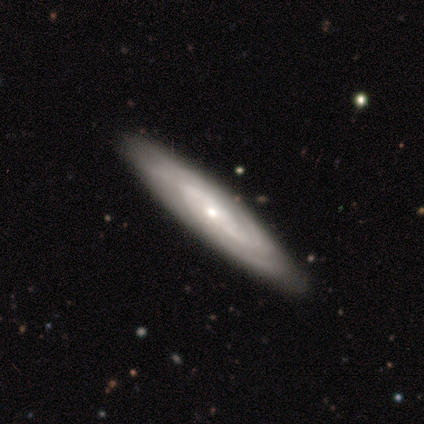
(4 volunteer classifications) smooth 50% (tied), featured or disk 50% (tied), star or artifact 0%. Down the decision tree: how rounded — in between (50%, tied with cigar-shaped); merging — none (100%).